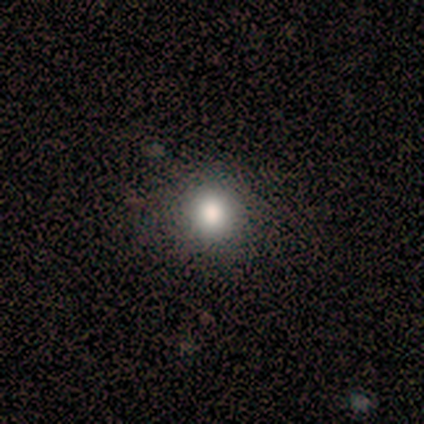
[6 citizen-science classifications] Smooth or featured? 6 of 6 (100%) said smooth. How rounded? 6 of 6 (100%) said round. Merging? 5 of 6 (83%) said none.